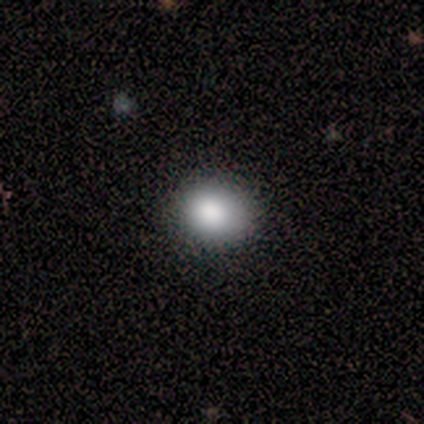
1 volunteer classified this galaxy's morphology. Q: Smooth or featured?
A: smooth (100%)
Q: How rounded?
A: in between (100%)
Q: Merging?
A: none (100%)